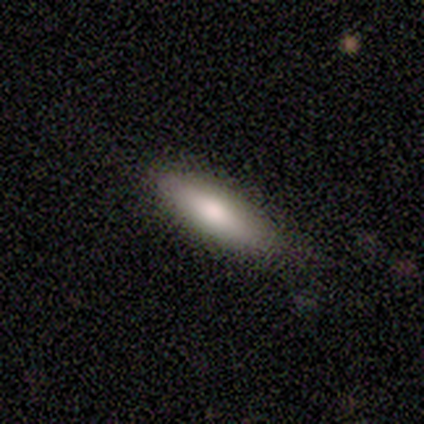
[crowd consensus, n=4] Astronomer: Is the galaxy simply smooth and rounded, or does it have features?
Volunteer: smooth — 100%.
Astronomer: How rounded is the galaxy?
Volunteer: cigar-shaped — 50%.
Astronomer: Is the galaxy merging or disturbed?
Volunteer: none — 50%.